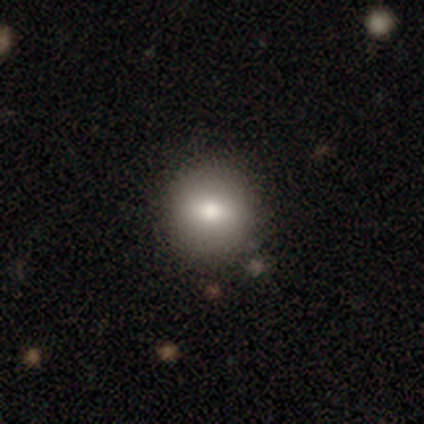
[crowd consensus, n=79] Q: Smooth or featured?
A: smooth (76%); runner-up: featured or disk (16%)
Q: How rounded?
A: round (83%); runner-up: in between (15%)
Q: Merging?
A: none (55%); runner-up: minor disturbance (7%)